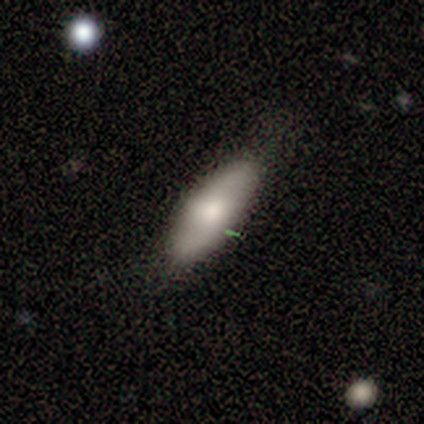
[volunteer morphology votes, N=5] A smooth galaxy with no disk features (60%) that is in between round and cigar-shaped (100%). Merging: minor disturbance (80%).